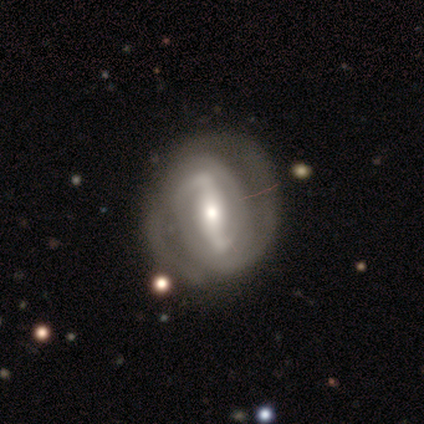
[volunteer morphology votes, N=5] smooth-or-featured: featured or disk: 100% | smooth: 0% | star or artifact: 0%
  disk-edge-on: no: 80% | yes: 20%
    bar: strong: 75% | no: 25% | weak: 0%
    has-spiral-arms: yes: 100% | no: 0%
      spiral-winding: tight: 50% (tied) | medium: 50% (tied) | loose: 0%
      spiral-arm-count: 2: 25% (tied) | 3: 25% (tied) | 4: 25% (tied) | can't tell: 25% (tied) | 1: 0% | more than 4: 0%
    bulge-size: moderate: 75% | small: 25% | dominant: 0% | large: 0% | none: 0%
  merging: none: 80% | merger: 20% | minor disturbance: 0% | major disturbance: 0%